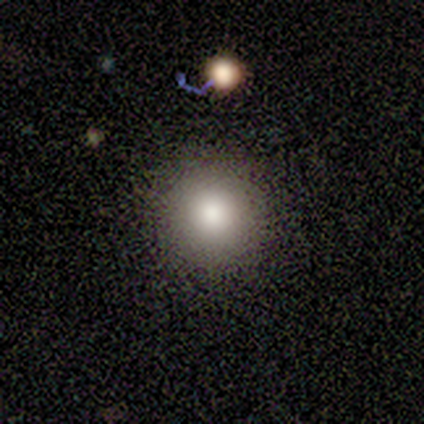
Morphology: type=smooth (80%); roundness=round (100%); merging=none (80%).